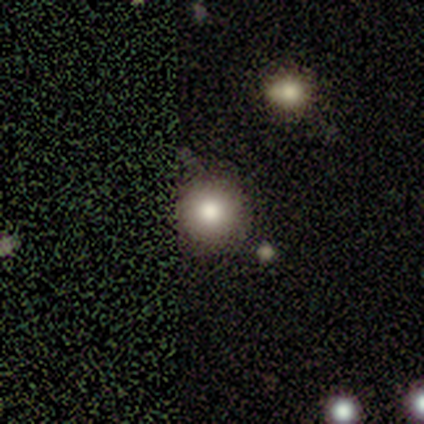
Q: Smooth or featured?
A: smooth (75%); runner-up: featured or disk (25%)
Q: How rounded?
A: round (100%)
Q: Merging?
A: none (100%)